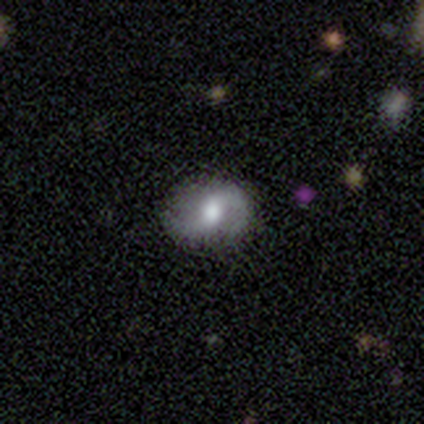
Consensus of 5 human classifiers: Smooth or featured?
  - featured or disk: 60% *
  - smooth: 40%
  - star or artifact: 0%
Edge-on disk?
  - no: 100% *
  - yes: 0%
Bar?
  - strong: 67% *
  - no: 33%
  - weak: 0%
Spiral arms?
  - yes: 100% *
  - no: 0%
Spiral winding?
  - loose: 100% *
  - tight: 0%
  - medium: 0%
Spiral arm count?
  - 2: 67% *
  - 1: 33%
  - 3: 0%
  - 4: 0%
  - more than 4: 0%
  - can't tell: 0%
Bulge size?
  - moderate: 100% *
  - dominant: 0%
  - large: 0%
  - small: 0%
  - none: 0%
Merging?
  - none: 60% *
  - minor disturbance: 20%
  - major disturbance: 20%
  - merger: 0%